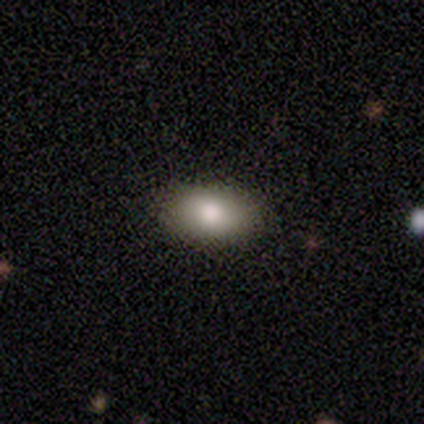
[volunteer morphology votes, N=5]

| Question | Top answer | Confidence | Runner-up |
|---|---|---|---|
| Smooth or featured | smooth | 100% | — |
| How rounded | in between | 80% | round (20%) |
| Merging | none | 80% | major disturbance (20%) |